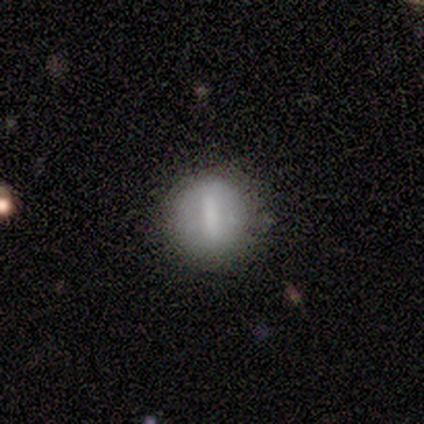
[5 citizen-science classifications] This appears to be a smooth galaxy with no disk features (60%) that is round (67%). Merging: none (80%).